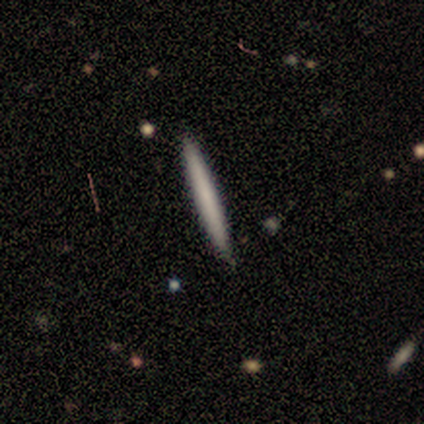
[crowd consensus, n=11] smooth_or_featured: smooth (p=0.64) [alt: featured or disk p=0.36]
how_rounded: cigar-shaped (p=1.00)
merging: none (p=1.00)